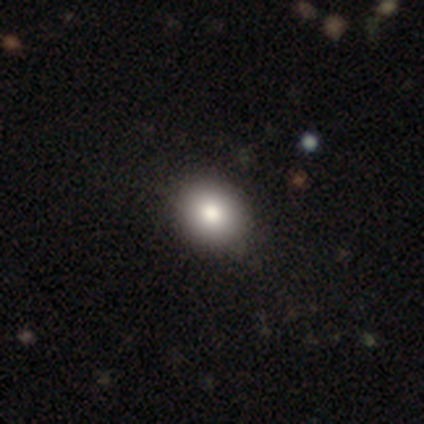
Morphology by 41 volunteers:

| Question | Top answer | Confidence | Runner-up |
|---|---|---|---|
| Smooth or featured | smooth | 76% | featured or disk (17%) |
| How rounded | round | 77% | in between (23%) |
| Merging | none | 68% | minor disturbance (5%) |